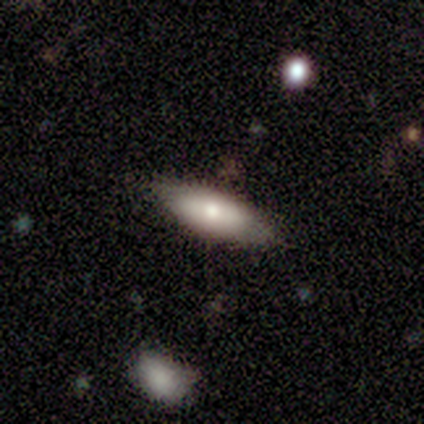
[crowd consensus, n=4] This appears to be a smooth galaxy with no disk features (100%) that is in between round and cigar-shaped (75%). Merging: none (75%).